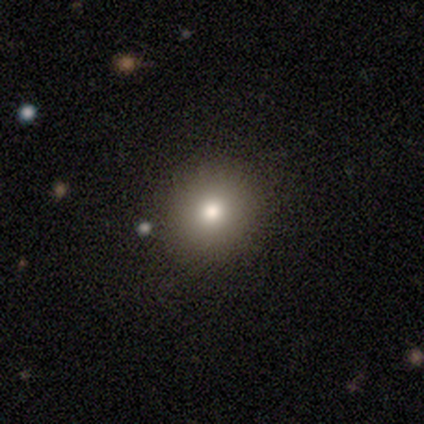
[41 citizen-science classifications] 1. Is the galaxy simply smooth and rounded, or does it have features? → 63% smooth, 20% featured or disk, 17% star or artifact.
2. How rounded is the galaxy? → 96% round, 4% in between, 0% cigar-shaped.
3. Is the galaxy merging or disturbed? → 91% none, 9% merger, 0% minor disturbance, 0% major disturbance.